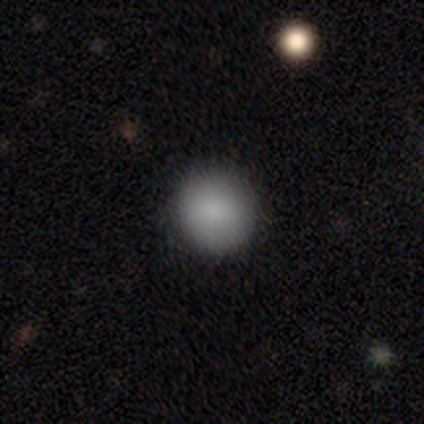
Smooth or featured? 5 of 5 (100%) said smooth. How rounded? 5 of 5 (100%) said round. Merging? 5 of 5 (100%) said none.